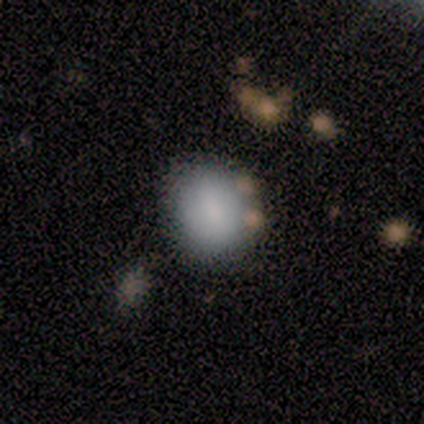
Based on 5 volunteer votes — Overall: smooth (40%, tied with featured or disk). How rounded: round (100%). Merging: none (100%).